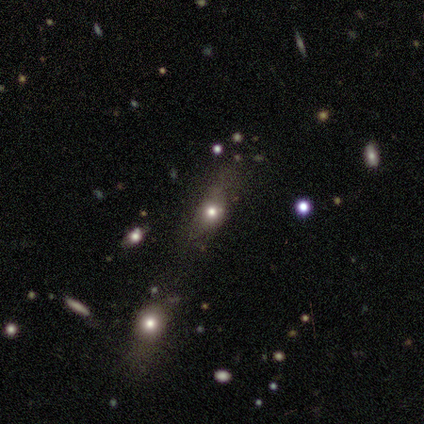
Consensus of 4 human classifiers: This is likely a smooth galaxy (75%). How rounded: likely in between (67%). Merging: possibly none (50%, tied with merger).